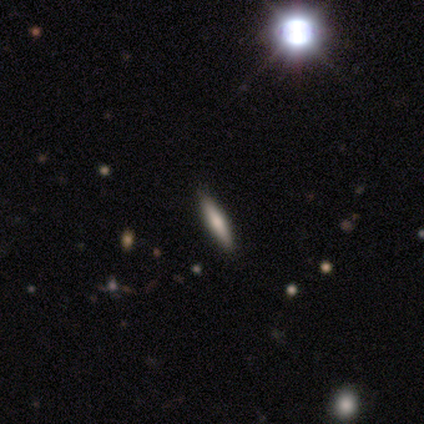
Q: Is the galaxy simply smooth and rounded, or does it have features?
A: smooth — 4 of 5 (80%).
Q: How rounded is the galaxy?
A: cigar-shaped — 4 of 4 (100%).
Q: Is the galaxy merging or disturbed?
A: none — 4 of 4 (100%).